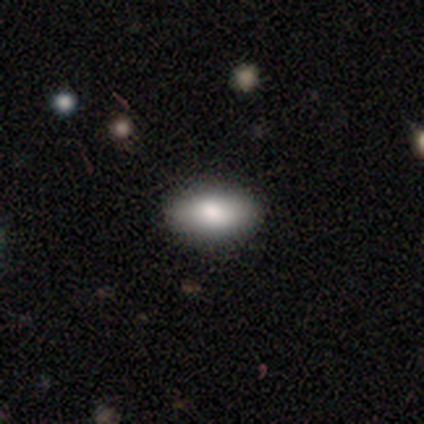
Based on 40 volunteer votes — A smooth galaxy with no disk features (80%) that is in between round and cigar-shaped (91%). Merging: none (92%).